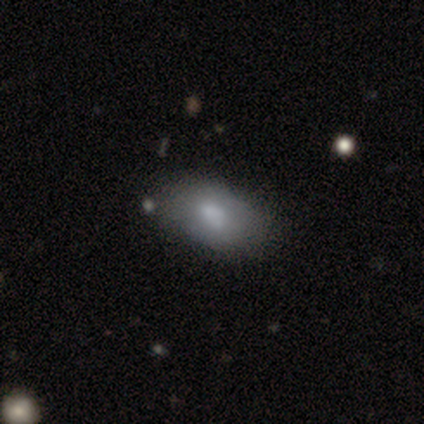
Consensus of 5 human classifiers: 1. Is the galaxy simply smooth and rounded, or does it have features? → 80% smooth, 20% featured or disk, 0% star or artifact.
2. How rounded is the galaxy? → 100% in between, 0% round, 0% cigar-shaped.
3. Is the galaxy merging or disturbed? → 100% none, 0% minor disturbance, 0% major disturbance, 0% merger.